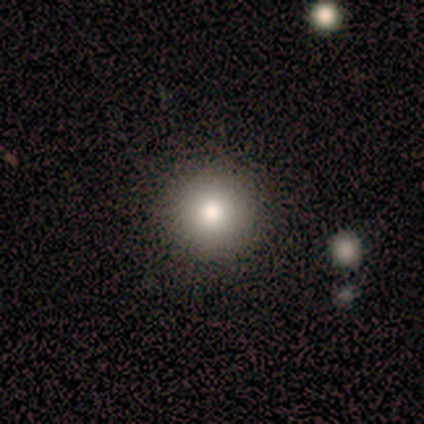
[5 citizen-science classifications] This appears to be a smooth galaxy with no disk features (100%) that is round (100%). Merging: none (100%).